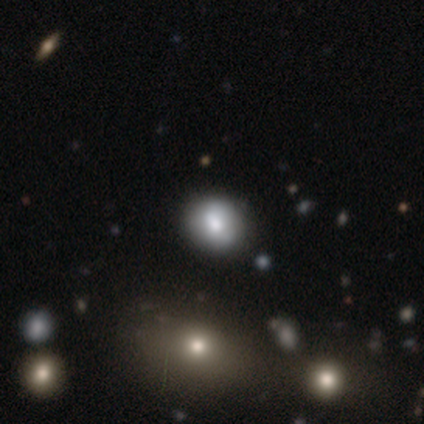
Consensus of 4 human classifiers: smooth 75%, featured or disk 25%, star or artifact 0%. Down the decision tree: how rounded — round (67%); merging — none (100%).